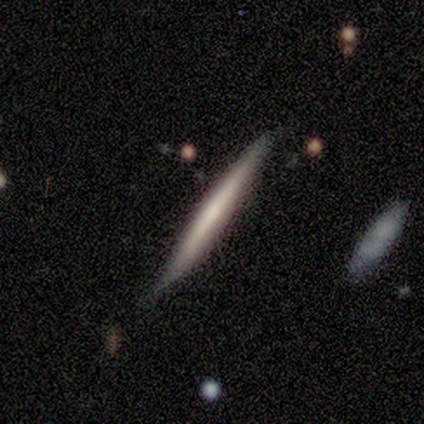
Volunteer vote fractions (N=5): Smooth or featured: smooth — 60% (featured or disk — 40%)
How rounded: cigar-shaped — 100%
Merging: none — 80% (minor disturbance — 20%)